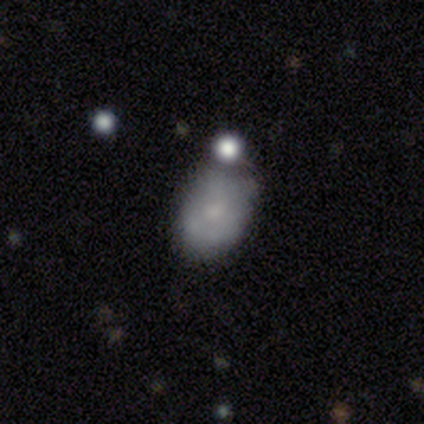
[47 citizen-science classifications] Smooth or featured?
  - smooth: 72% *
  - featured or disk: 21%
  - star or artifact: 6%
How rounded?
  - in between: 82% *
  - round: 15%
  - cigar-shaped: 3%
Merging?
  - minor disturbance: 41% *
  - none: 27%
  - merger: 18%
  - major disturbance: 14%